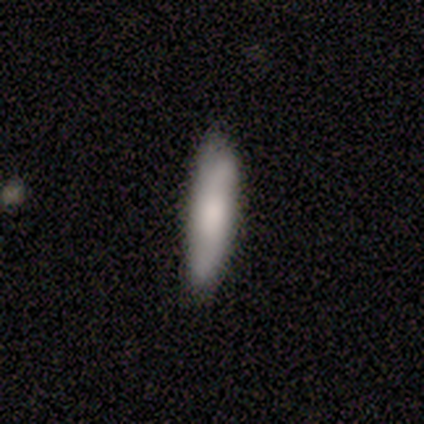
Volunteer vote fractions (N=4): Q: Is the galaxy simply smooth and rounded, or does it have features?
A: smooth — 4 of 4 (100%).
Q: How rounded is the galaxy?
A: in between — 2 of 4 (50%, tied with cigar-shaped).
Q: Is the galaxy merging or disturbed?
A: none — 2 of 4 (50%, tied with minor disturbance).